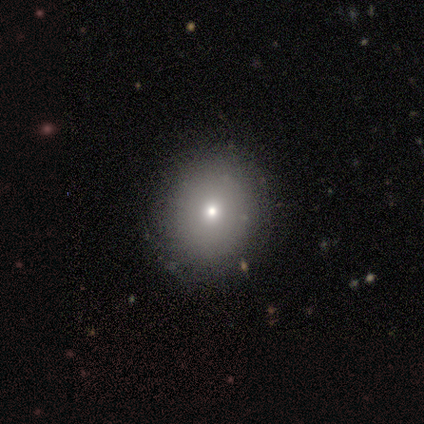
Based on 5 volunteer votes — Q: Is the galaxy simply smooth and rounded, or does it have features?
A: smooth — 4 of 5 (80%).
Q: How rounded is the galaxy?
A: round — 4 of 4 (100%).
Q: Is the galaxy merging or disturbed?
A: none — 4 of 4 (100%).